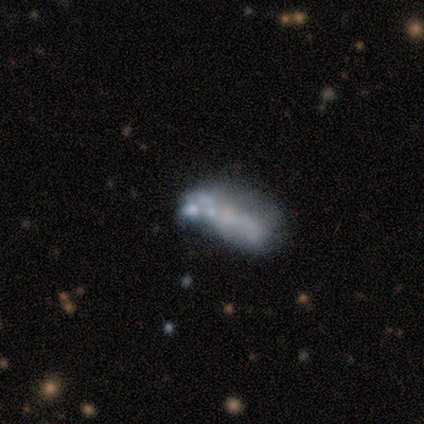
Smooth or featured? star or artifact (75%)